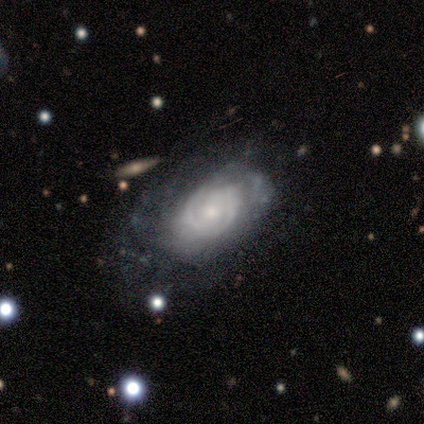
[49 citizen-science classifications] This is clearly a featured or disk galaxy (92%). It is clearly not viewed edge-on (96%). Bar: possibly no (58%). Spiral arm pattern: clearly yes (81%). Spiral arm count: possibly 2 (49%). Spiral winding: clearly tight (83%). Central bulge: possibly small (56%). Merging: possibly none (53%).